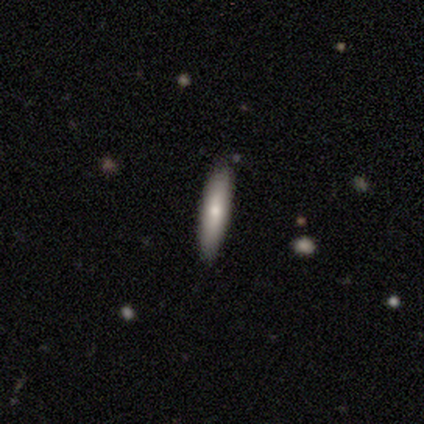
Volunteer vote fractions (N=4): smooth_or_featured: smooth (p=0.50) [tied with: featured or disk p=0.50]
how_rounded: cigar-shaped (p=1.00)
merging: none (p=1.00)